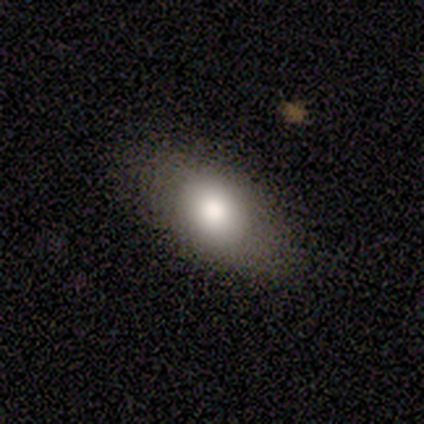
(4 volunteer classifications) Volunteers were most divided on "smooth or featured": smooth: 75%, featured or disk: 25%, star or artifact: 0%. More confident: how rounded — in between (100%); merging — none (75%).